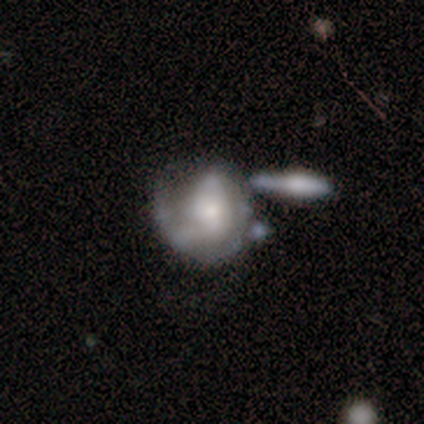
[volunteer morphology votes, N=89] Smooth or featured? featured or disk (67%)
Edge-on disk? no (100%)
Bar? no (62%)
Spiral arms? yes (70%)
Spiral winding? tight (43%)
Spiral arm count? 1 (40%)
Bulge size? moderate (43%)
Merging? none (33%)